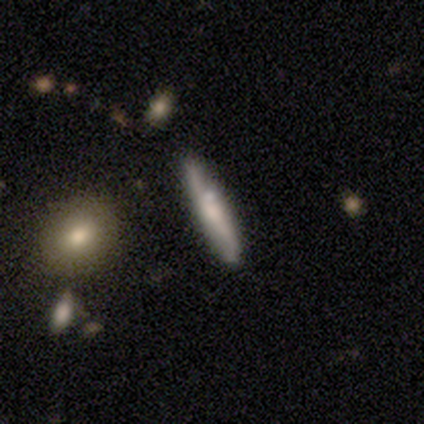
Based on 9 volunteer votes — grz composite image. It shows a smooth galaxy with no disk features (56%) that is cigar-shaped (60%). Merging: none (89%).